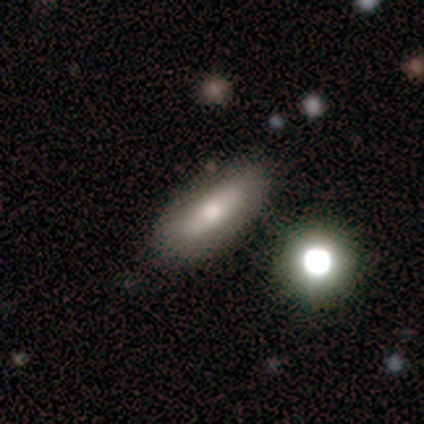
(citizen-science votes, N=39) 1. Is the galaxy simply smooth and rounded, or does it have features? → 69% smooth, 26% featured or disk, 5% star or artifact.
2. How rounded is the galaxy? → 59% in between, 33% cigar-shaped, 7% round.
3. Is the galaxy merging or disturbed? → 86% none, 11% minor disturbance, 3% merger, 0% major disturbance.